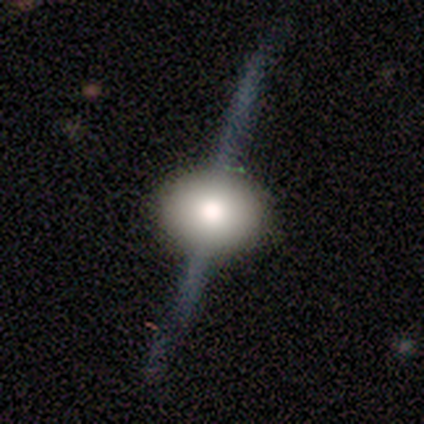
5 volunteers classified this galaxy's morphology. Smooth or featured? smooth (40%, tied with featured or disk)
How rounded? round (50%, tied with in between)
Merging? none (100%)